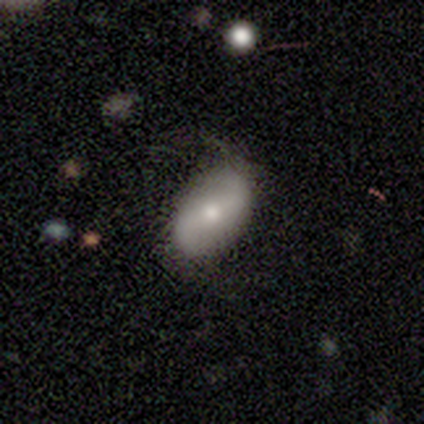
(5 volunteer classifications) Morphology: type=smooth (60%); roundness=in between (67%); merging=none (60%).